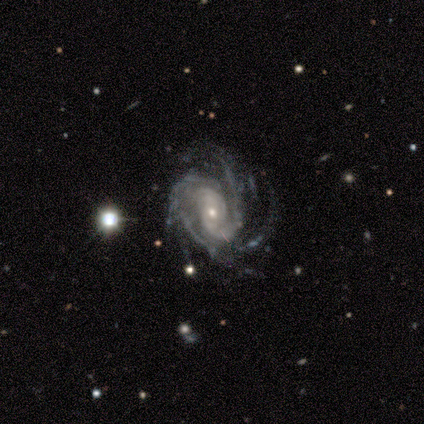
Q: Smooth or featured?
A: featured or disk (98%); runner-up: smooth (2%)
Q: Edge-on disk?
A: no (100%)
Q: Bar?
A: no (68%); runner-up: weak (20%)
Q: Spiral arms?
A: yes (98%); runner-up: no (2%)
Q: Spiral winding?
A: tight (52%); runner-up: medium (38%)
Q: Spiral arm count?
A: more than 4 (28%); runner-up: 4 (22%)
Q: Bulge size?
A: small (71%); runner-up: moderate (24%)
Q: Merging?
A: none (69%); runner-up: minor disturbance (19%)